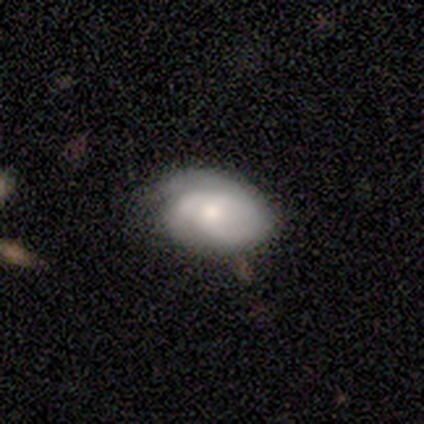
smooth-or-featured: smooth: 40% (tied) | featured or disk: 40% (tied) | star or artifact: 20%
  how-rounded: in between: 100% | round: 0% | cigar-shaped: 0%
  merging: minor disturbance: 50% | none: 25% | major disturbance: 25% | merger: 0%